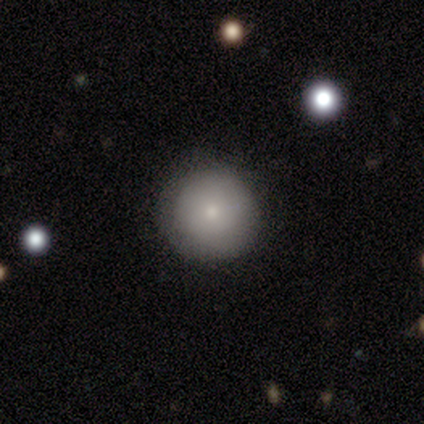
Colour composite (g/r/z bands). It shows a smooth galaxy with no disk features (100%) that is round (75%). Merging: none (75%).